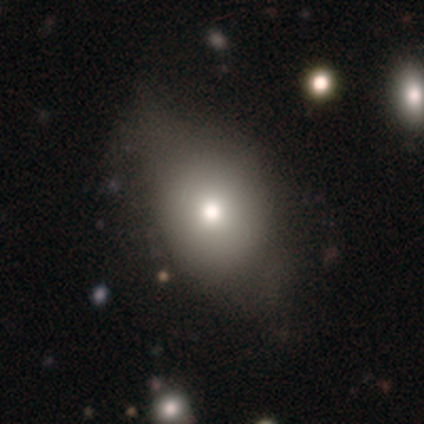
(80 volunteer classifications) smooth 84%, featured or disk 9%, star or artifact 8%. Down the decision tree: how rounded — in between (67%); merging — none (26%).